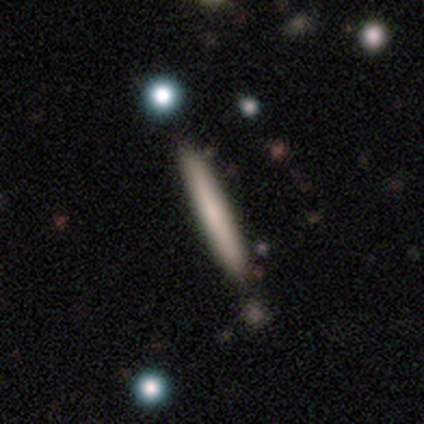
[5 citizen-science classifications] smooth_or_featured: smooth (p=0.60) [alt: featured or disk p=0.40]
how_rounded: cigar-shaped (p=1.00)
merging: none (p=1.00)